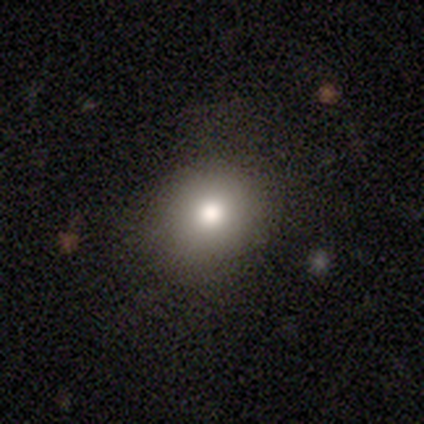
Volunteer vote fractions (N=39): This appears to be a smooth galaxy with no disk features (74%) that is round (83%). Merging: none (89%).